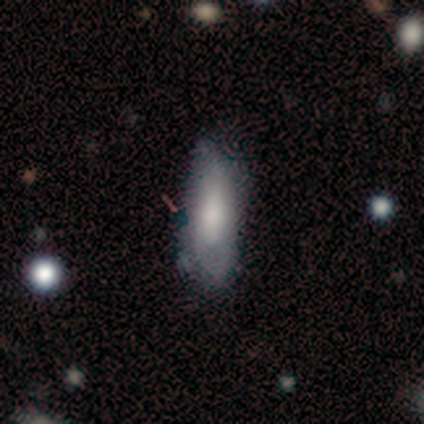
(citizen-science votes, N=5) Smooth or featured: smooth — 80% (star or artifact — 20%)
How rounded: in between — 50% (round — 25%)
Merging: none — 50% (tied with minor disturbance — 50%)